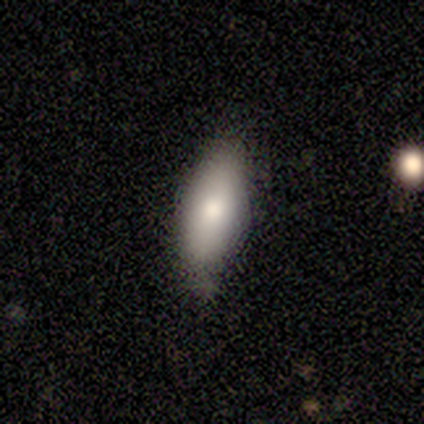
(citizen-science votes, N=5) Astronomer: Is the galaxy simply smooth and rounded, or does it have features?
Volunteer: smooth — 80%.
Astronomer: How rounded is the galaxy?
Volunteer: in between — 50%, tied with cigar-shaped at 50%.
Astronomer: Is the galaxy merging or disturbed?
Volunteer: minor disturbance — 75%.